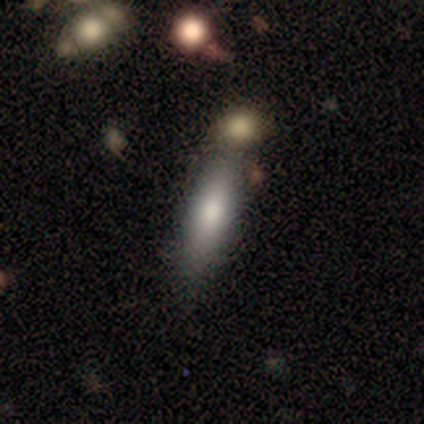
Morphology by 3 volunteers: Q: Smooth or featured?
A: smooth (67%); runner-up: featured or disk (33%)
Q: How rounded?
A: in between (50%); tied with: cigar-shaped (50%)
Q: Merging?
A: none (67%); runner-up: minor disturbance (33%)